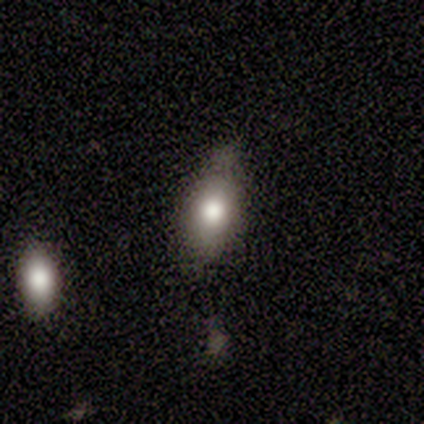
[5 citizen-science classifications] smooth_or_featured: smooth (p=1.00)
how_rounded: in between (p=1.00)
merging: minor disturbance (p=0.60) [alt: none p=0.20]